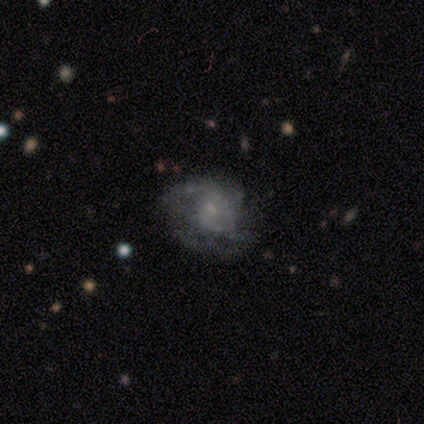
Smooth or featured: smooth — 40% (tied with featured or disk — 40%)
How rounded: round — 50% (tied with in between — 50%)
Merging: none — 50% (minor disturbance — 25%)